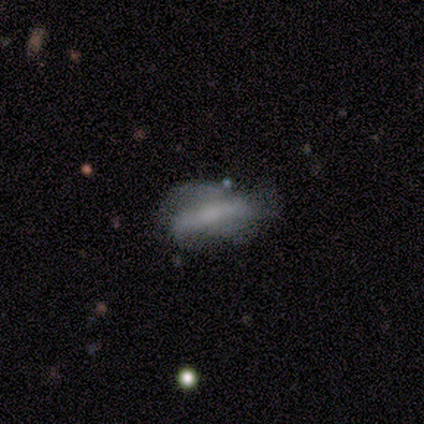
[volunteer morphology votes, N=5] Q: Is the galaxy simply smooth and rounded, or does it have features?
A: featured or disk — 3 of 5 (60%).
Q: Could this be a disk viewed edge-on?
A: no — 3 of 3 (100%).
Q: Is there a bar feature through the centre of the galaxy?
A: weak — 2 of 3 (67%).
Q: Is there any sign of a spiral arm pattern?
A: no — 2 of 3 (67%).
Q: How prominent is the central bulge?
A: small — 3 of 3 (100%).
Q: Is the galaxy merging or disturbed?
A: none — 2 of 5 (40%, tied with minor disturbance).